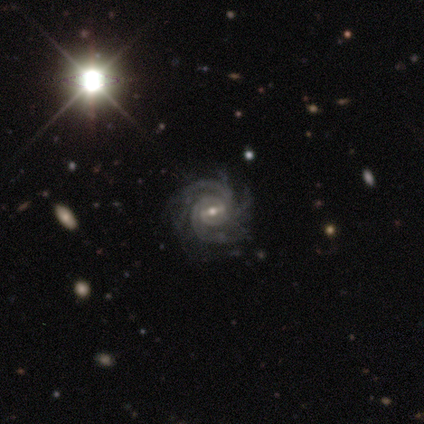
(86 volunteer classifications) Q: Smooth or featured?
A: featured or disk (91%); runner-up: star or artifact (8%)
Q: Edge-on disk?
A: no (97%); runner-up: yes (3%)
Q: Bar?
A: weak (45%); runner-up: strong (41%)
Q: Spiral arms?
A: yes (99%); runner-up: no (1%)
Q: Spiral winding?
A: tight (69%); runner-up: medium (27%)
Q: Spiral arm count?
A: 3 (32%); runner-up: more than 4 (23%)
Q: Bulge size?
A: moderate (50%); runner-up: small (47%)
Q: Merging?
A: none (72%); runner-up: minor disturbance (19%)